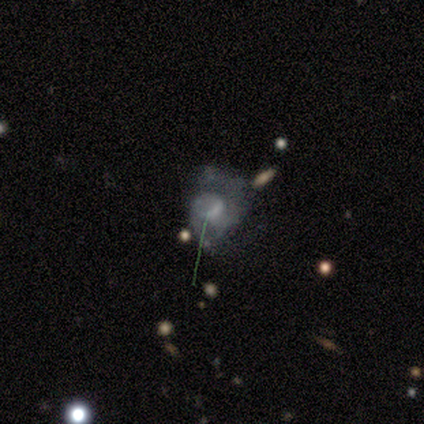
A smooth galaxy with no disk features (40%, tied with featured or disk) that is round (100%).

Vote fractions:
- Smooth or featured? smooth: 40% (tied) / featured or disk: 40% (tied) / star or artifact: 20%
- How rounded? round: 100% / in between: 0% / cigar-shaped: 0%
- Merging? major disturbance: 50% / none: 25% / minor disturbance: 25% / merger: 0%